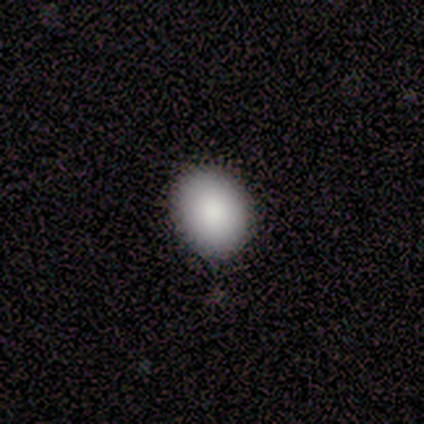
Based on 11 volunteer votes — Morphology: type=smooth (91%); roundness=in between (60%); merging=none (91%).